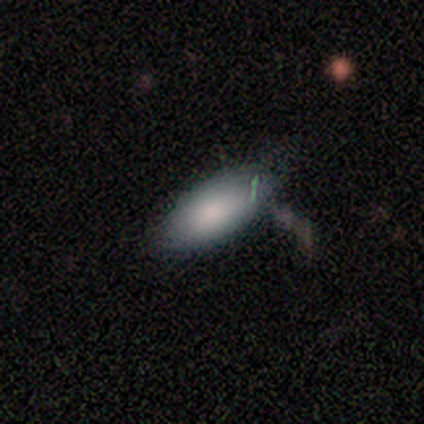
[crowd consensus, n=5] smooth 100%, featured or disk 0%, star or artifact 0%. Down the decision tree: how rounded — in between (100%); merging — none (60%).